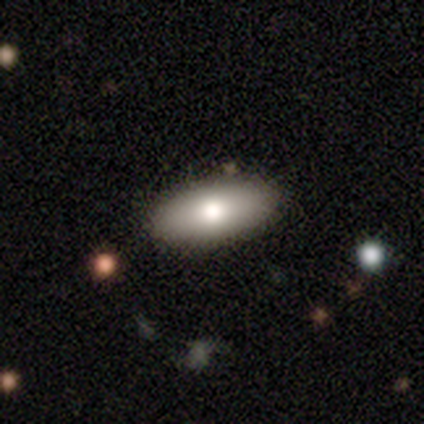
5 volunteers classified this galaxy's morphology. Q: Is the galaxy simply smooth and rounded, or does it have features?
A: smooth — 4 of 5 (80%).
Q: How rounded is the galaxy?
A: in between — 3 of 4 (75%).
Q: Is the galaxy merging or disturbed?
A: none — 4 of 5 (80%).